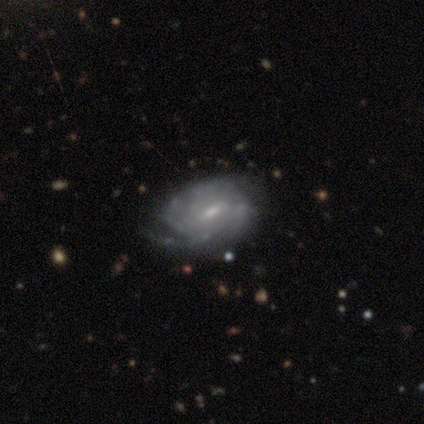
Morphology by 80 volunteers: Overall: featured or disk (86%). Edge-on disk: no (97%). Bar: weak (70%). Spiral arms: yes (91%). Spiral arm count: can't tell (51%; 4 18%). Spiral winding: tight (64%; medium 30%). Bulge size: small (63%; moderate 31%). Merging: none (32%; minor disturbance 16%).